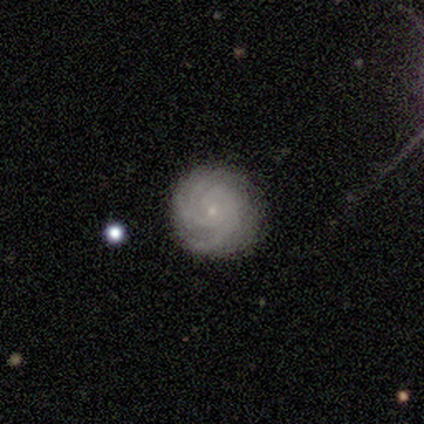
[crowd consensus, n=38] smooth_or_featured: featured or disk (p=0.89) [alt: smooth p=0.11]
disk_edge_on: no (p=0.91) [alt: yes p=0.09]
bar: no (p=0.77) [alt: weak p=0.16]
has_spiral_arms: yes (p=0.97) [alt: no p=0.03]
spiral_winding: tight (p=0.73) [alt: medium p=0.23]
spiral_arm_count: can't tell (p=0.37) [alt: 3 p=0.30]
bulge_size: small (p=0.87) [alt: moderate p=0.06]
merging: none (p=0.71) [alt: minor disturbance p=0.24]